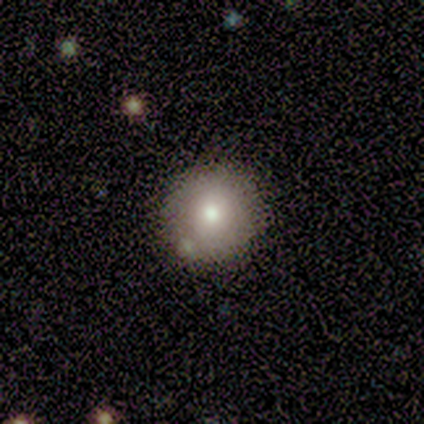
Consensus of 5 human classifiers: A smooth galaxy with no disk features (100%) that is round (80%).

Vote fractions:
- Smooth or featured? smooth: 100% / featured or disk: 0% / star or artifact: 0%
- How rounded? round: 80% / in between: 20% / cigar-shaped: 0%
- Merging? none: 100% / minor disturbance: 0% / major disturbance: 0% / merger: 0%